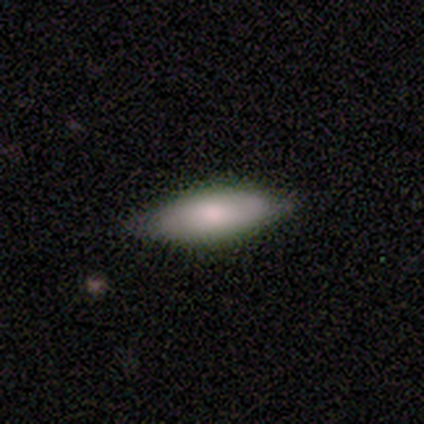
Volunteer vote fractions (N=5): featured or disk 60%, smooth 40%, star or artifact 0%. Down the decision tree: edge-on disk — no (67%); bar — no (100%); spiral arms — no (100%); bulge size — moderate (50%, tied with small); merging — none (100%).